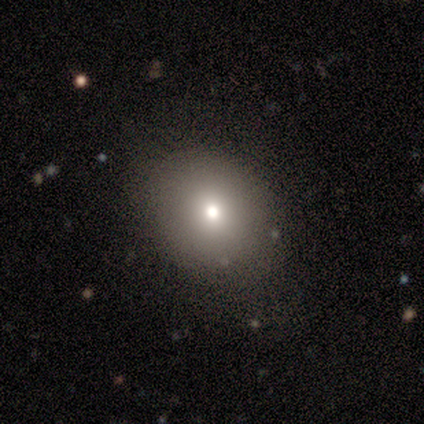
This is likely a smooth galaxy (60%). How rounded: likely in between (67%). Merging: clearly none (100%).